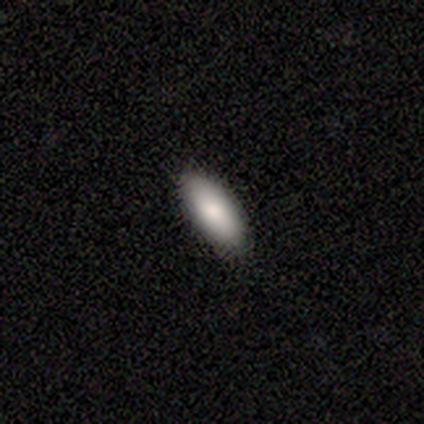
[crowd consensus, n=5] Smooth or featured?
  - smooth: 80% *
  - featured or disk: 20%
  - star or artifact: 0%
How rounded?
  - in between: 50% * (tied)
  - cigar-shaped: 50% * (tied)
  - round: 0%
Merging?
  - none: 100% *
  - minor disturbance: 0%
  - major disturbance: 0%
  - merger: 0%